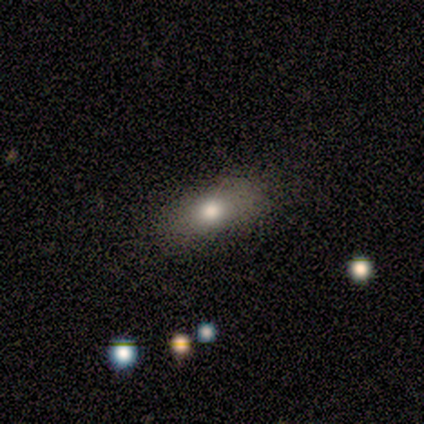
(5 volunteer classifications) This is clearly a smooth galaxy (100%). How rounded: clearly in between (80%). Merging: clearly none (80%).